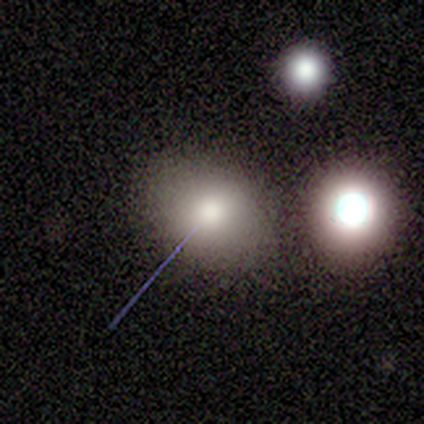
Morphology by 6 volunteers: A smooth galaxy with no disk features (100%) that is in between round and cigar-shaped (83%).

Vote fractions:
- Smooth or featured? smooth: 100% / featured or disk: 0% / star or artifact: 0%
- How rounded? in between: 83% / round: 17% / cigar-shaped: 0%
- Merging? none: 50% / major disturbance: 33% / minor disturbance: 17% / merger: 0%